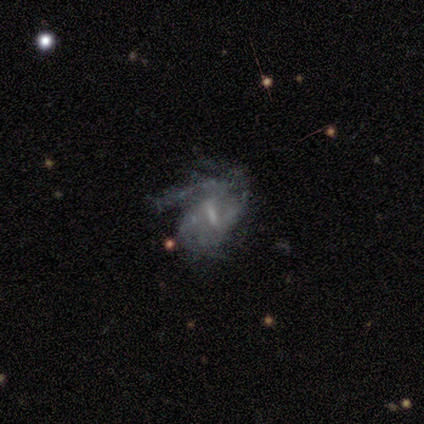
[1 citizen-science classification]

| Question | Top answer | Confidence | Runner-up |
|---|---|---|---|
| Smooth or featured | featured or disk | 100% | — |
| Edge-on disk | no | 100% | — |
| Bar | strong | 100% | — |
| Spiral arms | yes | 100% | — |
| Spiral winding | medium | 100% | — |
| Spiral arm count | can't tell | 100% | — |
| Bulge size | moderate | 100% | — |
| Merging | major disturbance | 100% | — |